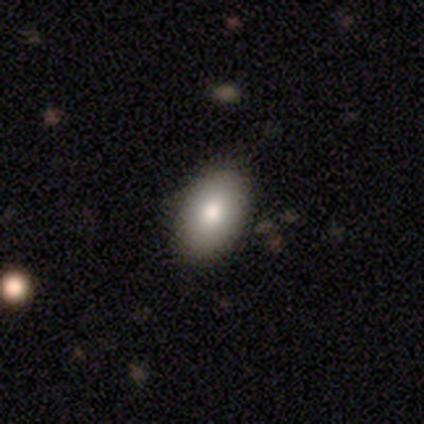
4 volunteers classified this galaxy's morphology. Q: Smooth or featured?
A: smooth (100%)
Q: How rounded?
A: in between (75%); runner-up: round (25%)
Q: Merging?
A: none (100%)